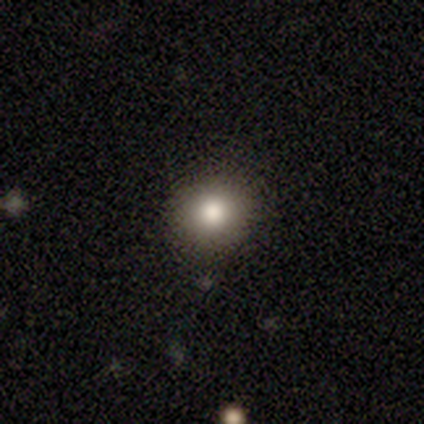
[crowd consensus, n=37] A smooth galaxy with no disk features (78%) that is round (90%). Merging: none (81%).